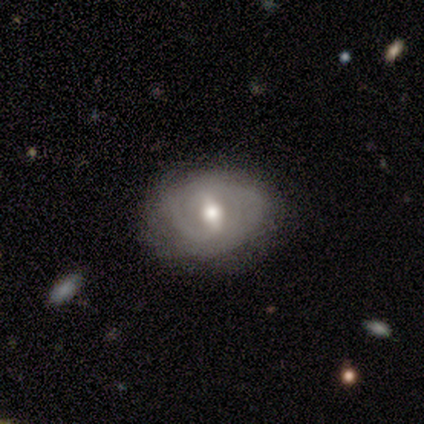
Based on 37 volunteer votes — Q: Smooth or featured?
A: featured or disk (76%); runner-up: smooth (22%)
Q: Edge-on disk?
A: no (96%); runner-up: yes (4%)
Q: Bar?
A: weak (56%); runner-up: strong (30%)
Q: Spiral arms?
A: yes (81%); runner-up: no (19%)
Q: Spiral winding?
A: tight (68%); runner-up: medium (27%)
Q: Spiral arm count?
A: 2 (59%); runner-up: can't tell (36%)
Q: Bulge size?
A: moderate (85%); runner-up: large (11%)
Q: Merging?
A: none (67%); runner-up: minor disturbance (28%)